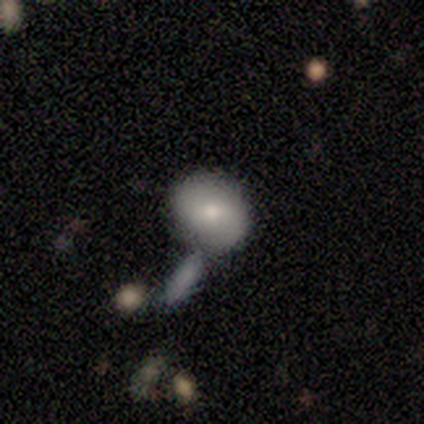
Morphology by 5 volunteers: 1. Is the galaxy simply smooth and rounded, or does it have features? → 80% smooth, 20% featured or disk, 0% star or artifact.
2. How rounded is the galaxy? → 50% round (tied), 50% in between (tied), 0% cigar-shaped.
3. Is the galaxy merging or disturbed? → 80% none, 20% merger, 0% minor disturbance, 0% major disturbance.